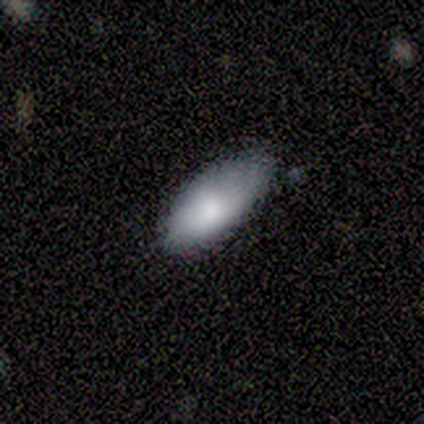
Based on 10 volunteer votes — A smooth galaxy with no disk features (90%) that is in between round and cigar-shaped (100%). Merging: none (50%).